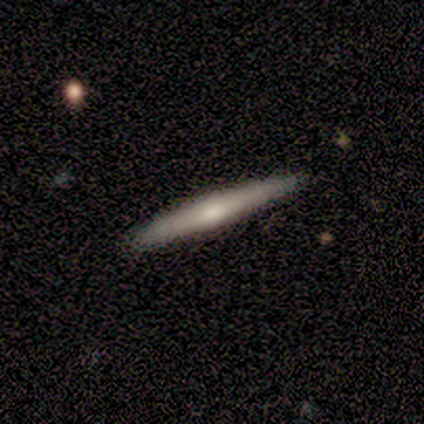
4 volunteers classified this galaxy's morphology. Smooth or featured? 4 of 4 (100%) said featured or disk. Edge-on disk? 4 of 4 (100%) said yes. Edge-on bulge? 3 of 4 (75%) said rounded. Merging? 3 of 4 (75%) said none.